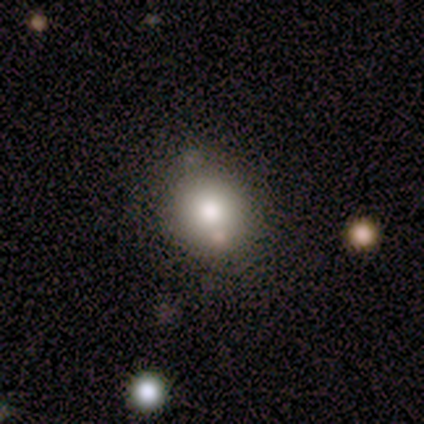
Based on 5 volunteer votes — smooth 80%, featured or disk 20%, star or artifact 0%. Down the decision tree: how rounded — round (100%); merging — none (100%).